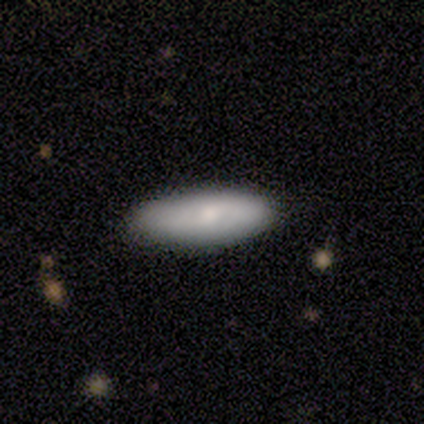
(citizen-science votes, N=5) smooth_or_featured: smooth (p=0.80) [alt: featured or disk p=0.20]
how_rounded: in between (p=0.75) [alt: cigar-shaped p=0.25]
merging: none (p=1.00)